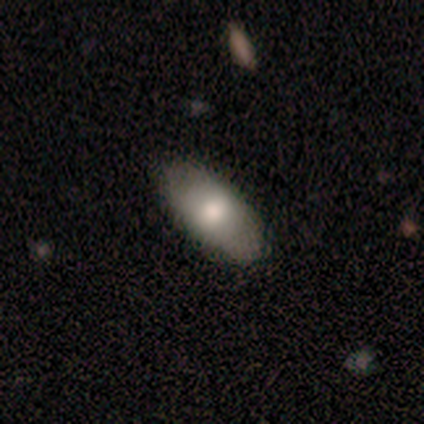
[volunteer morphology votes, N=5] Overall: smooth (60%; featured or disk 20%). How rounded: in between (67%; round 33%). Merging: none (50%; minor disturbance 25%).